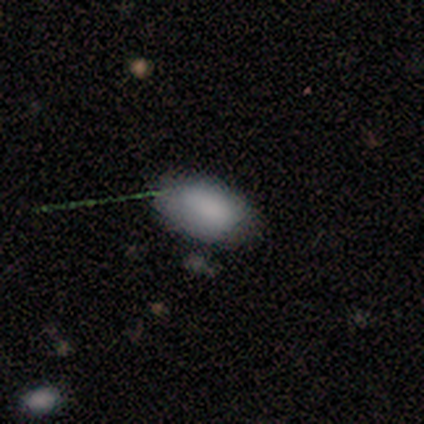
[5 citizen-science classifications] Smooth or featured? 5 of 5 (100%) said smooth. How rounded? 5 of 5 (100%) said in between. Merging? 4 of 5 (80%) said none.